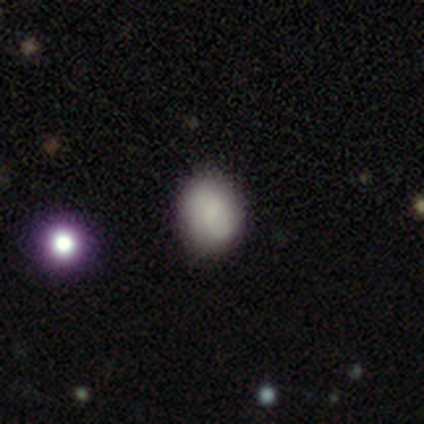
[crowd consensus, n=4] smooth_or_featured: smooth (p=0.75) [alt: star or artifact p=0.25]
how_rounded: in between (p=0.67) [alt: round p=0.33]
merging: none (p=0.67) [alt: minor disturbance p=0.33]